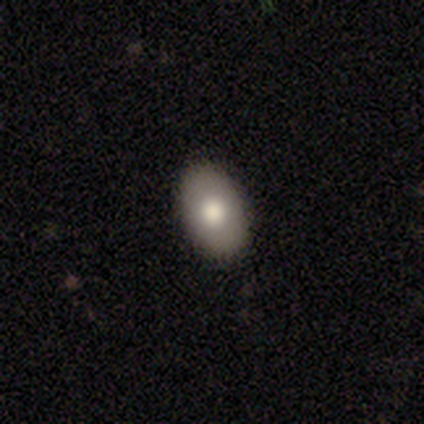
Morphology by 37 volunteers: smooth-or-featured: smooth: 81% | featured or disk: 16% | star or artifact: 3%
  how-rounded: in between: 93% | round: 7% | cigar-shaped: 0%
  merging: none: 100% | minor disturbance: 0% | major disturbance: 0% | merger: 0%